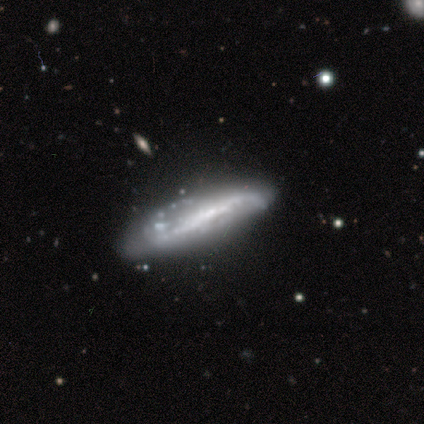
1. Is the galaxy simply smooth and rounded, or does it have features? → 75% featured or disk, 25% smooth, 0% star or artifact.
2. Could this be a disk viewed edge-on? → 100% no, 0% yes.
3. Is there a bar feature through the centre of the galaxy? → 33% strong (tied), 33% weak (tied), 33% no (tied).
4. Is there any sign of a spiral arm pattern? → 67% yes, 33% no.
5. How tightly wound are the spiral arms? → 100% loose, 0% tight, 0% medium.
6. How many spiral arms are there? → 100% 2, 0% 1, 0% 3, 0% 4, 0% more than 4, 0% can't tell.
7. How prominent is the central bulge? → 67% small, 33% moderate, 0% dominant, 0% large, 0% none.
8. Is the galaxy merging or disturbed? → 75% none, 25% minor disturbance, 0% major disturbance, 0% merger.